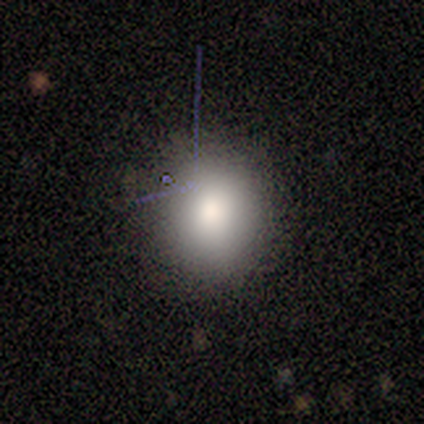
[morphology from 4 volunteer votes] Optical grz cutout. It shows a smooth galaxy with no disk features (100%) that is round (50%, tied with in between). Merging: none (100%).